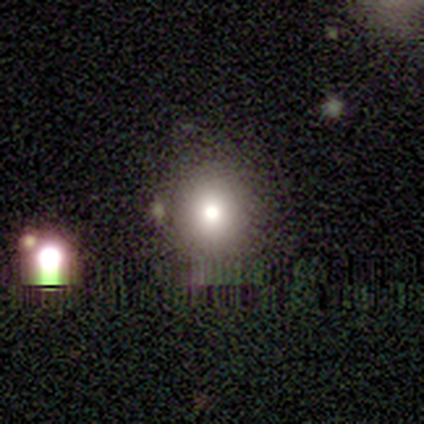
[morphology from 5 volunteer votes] smooth-or-featured: smooth: 60% | star or artifact: 40% | featured or disk: 0%
  how-rounded: round: 67% | in between: 33% | cigar-shaped: 0%
  merging: none: 100% | minor disturbance: 0% | major disturbance: 0% | merger: 0%